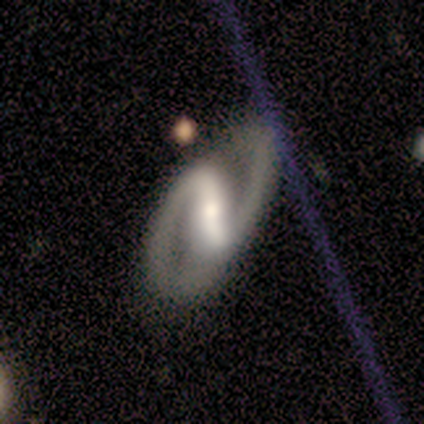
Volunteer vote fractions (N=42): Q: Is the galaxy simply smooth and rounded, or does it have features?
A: featured or disk — 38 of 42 (90%).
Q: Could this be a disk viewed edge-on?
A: no — 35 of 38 (92%).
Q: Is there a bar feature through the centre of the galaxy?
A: strong — 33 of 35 (94%).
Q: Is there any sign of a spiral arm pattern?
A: yes — 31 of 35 (89%).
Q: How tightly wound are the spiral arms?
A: medium — 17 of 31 (55%).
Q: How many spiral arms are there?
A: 2 — 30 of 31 (97%).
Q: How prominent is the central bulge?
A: moderate — 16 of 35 (46%).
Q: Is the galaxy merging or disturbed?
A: none — 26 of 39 (67%).